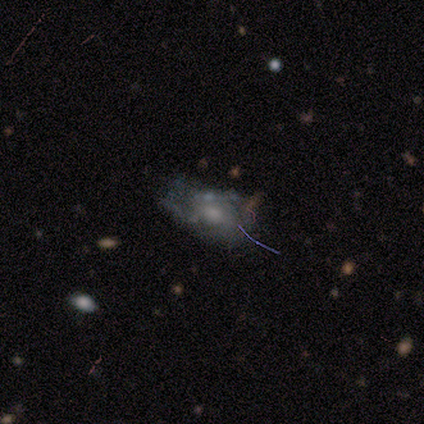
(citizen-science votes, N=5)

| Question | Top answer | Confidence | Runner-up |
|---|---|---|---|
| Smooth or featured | featured or disk | 100% | — |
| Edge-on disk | no | 100% | — |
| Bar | no | 80% | weak (20%) |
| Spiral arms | yes | 60% | no (40%) |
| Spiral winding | tight | 67% | medium (33%) |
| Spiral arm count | can't tell | 67% | 1 (33%) |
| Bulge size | moderate | 60% | none (40%) |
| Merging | minor disturbance | 60% | major disturbance (40%) |